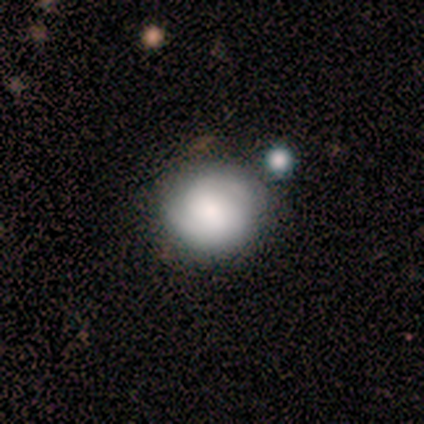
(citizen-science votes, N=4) This is likely a featured or disk galaxy (75%). It is clearly not viewed edge-on (100%). Bar: marginally strong (33%, tied with weak and no). Spiral arm pattern: likely yes (67%). Spiral arm count: clearly 2 (100%). Spiral winding: possibly tight (50%, tied with medium). Central bulge: clearly small (100%). Merging: likely none (75%).